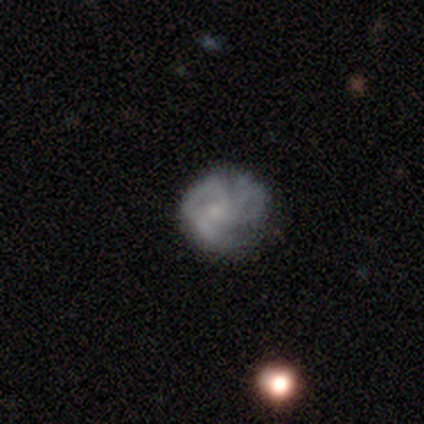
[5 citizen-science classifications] Volunteers were most divided on "spiral arms": yes: 60%, no: 40%. Remaining: smooth or featured — featured or disk (100%); edge-on disk — no (100%); bar — no (80%); spiral winding — medium (67%); spiral arm count — 1 (67%); bulge size — small (60%); merging — none (40%).